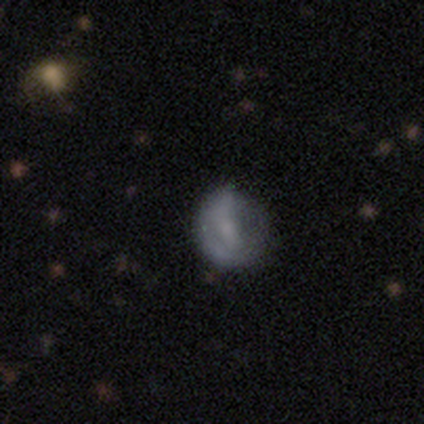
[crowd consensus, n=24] smooth 42%, featured or disk 38%, star or artifact 21%. Down the decision tree: how rounded — round (90%); merging — none (58%).